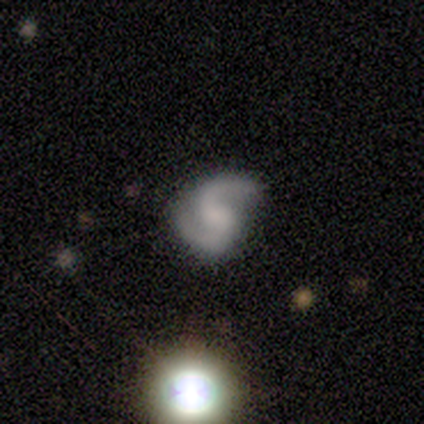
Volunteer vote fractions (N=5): This appears to be a featured or disk galaxy (100%) with a weak bar (60%), 2 (100%) medium (50%) spiral arms (80%) and a small central bulge (40%, tied with none). Merging: none (80%).